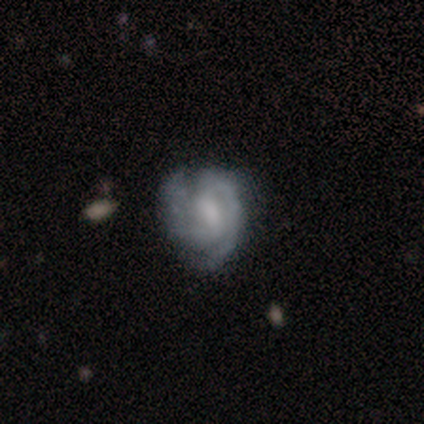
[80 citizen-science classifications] smooth-or-featured: featured or disk: 92% | smooth: 5% | star or artifact: 2%
  disk-edge-on: no: 100% | yes: 0%
    bar: weak: 68% | strong: 22% | no: 11%
    has-spiral-arms: yes: 95% | no: 5%
      spiral-winding: tight: 59% | medium: 33% | loose: 9%
      spiral-arm-count: 2: 90% | 3: 6% | can't tell: 4% | 1: 0% | 4: 0% | more than 4: 0%
    bulge-size: moderate: 35% | small: 34% | none: 26% | large: 5% | dominant: 0%
  merging: none: 27% | minor disturbance: 17% | major disturbance: 5% | merger: 1%